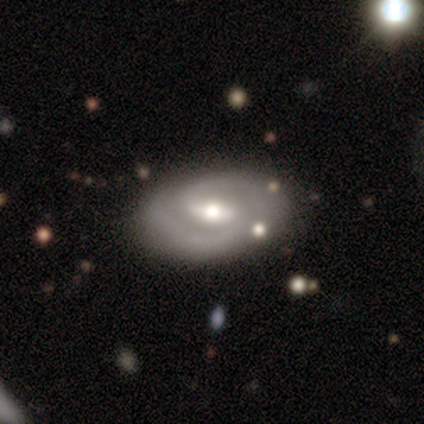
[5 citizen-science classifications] A featured or disk galaxy (100%) with a weak bar (80%), 2 (80%) medium (80%) spiral arms (100%) and a moderate central bulge (80%).

Vote fractions:
- Smooth or featured? featured or disk: 100% / smooth: 0% / star or artifact: 0%
- Edge-on disk? no: 100% / yes: 0%
- Bar? weak: 80% / strong: 20% / no: 0%
- Spiral arms? yes: 100% / no: 0%
- Spiral winding? medium: 80% / tight: 20% / loose: 0%
- Spiral arm count? 2: 80% / can't tell: 20% / 1: 0% / 3: 0% / 4: 0% / more than 4: 0%
- Bulge size? moderate: 80% / small: 20% / dominant: 0% / large: 0% / none: 0%
- Merging? none: 80% / minor disturbance: 20% / major disturbance: 0% / merger: 0%